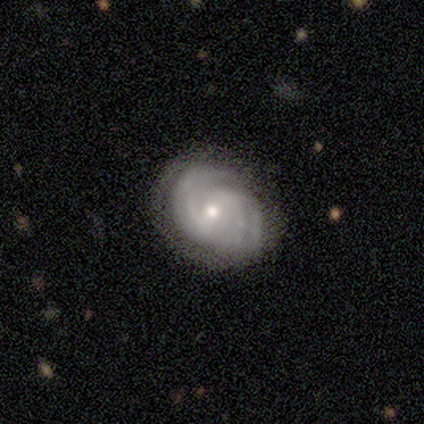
Smooth or featured? featured or disk (60%)
Edge-on disk? no (100%)
Bar? weak (67%)
Spiral arms? yes (100%)
Spiral winding? tight (33%, tied with medium and loose)
Spiral arm count? 2 (33%, tied with 3 and can't tell)
Bulge size? moderate (67%)
Merging? none (60%)